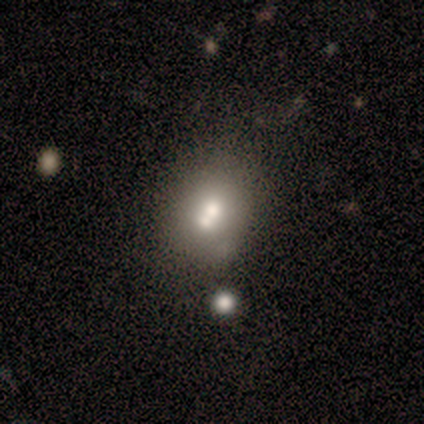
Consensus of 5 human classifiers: smooth 60%, featured or disk 40%, star or artifact 0%. Down the decision tree: how rounded — round (100%); merging — none (60%).